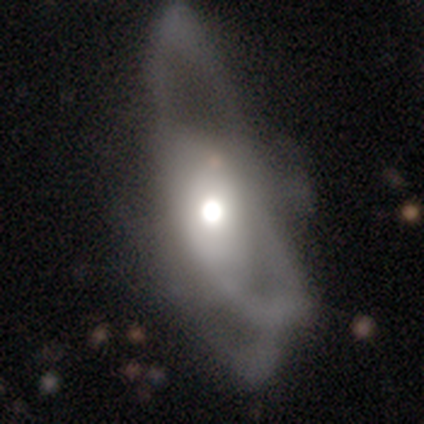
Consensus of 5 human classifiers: Q: Smooth or featured?
A: featured or disk (100%)
Q: Edge-on disk?
A: no (80%); runner-up: yes (20%)
Q: Bar?
A: no (100%)
Q: Spiral arms?
A: no (75%); runner-up: yes (25%)
Q: Bulge size?
A: small (50%); runner-up: large (25%)
Q: Merging?
A: major disturbance (80%); runner-up: none (20%)